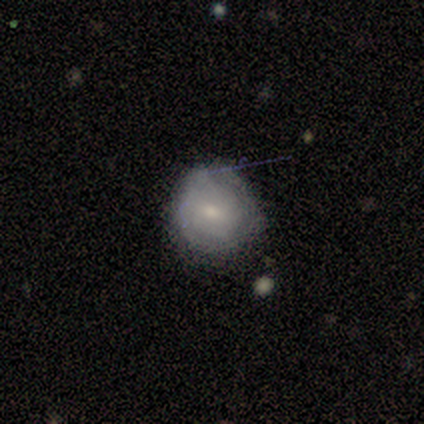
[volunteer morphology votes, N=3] A smooth galaxy with no disk features (100%) that is round (67%). Merging: none (100%).